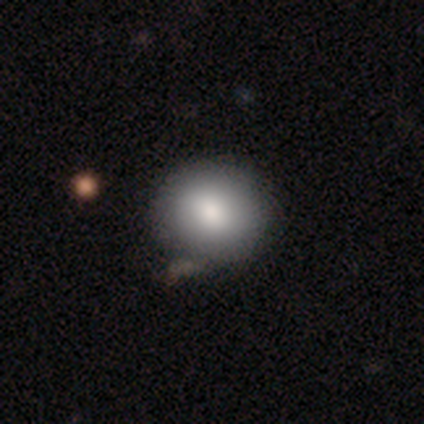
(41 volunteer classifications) Q: Smooth or featured?
A: smooth (90%); runner-up: featured or disk (10%)
Q: How rounded?
A: round (78%); runner-up: in between (22%)
Q: Merging?
A: none (56%); runner-up: minor disturbance (7%)